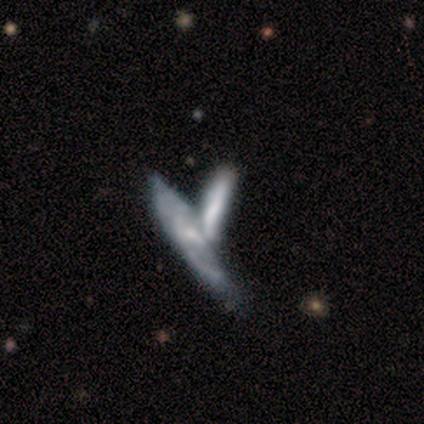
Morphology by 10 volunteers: Smooth or featured? 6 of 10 (60%) said smooth. How rounded? 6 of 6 (100%) said cigar-shaped. Merging? 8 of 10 (80%) said merger.